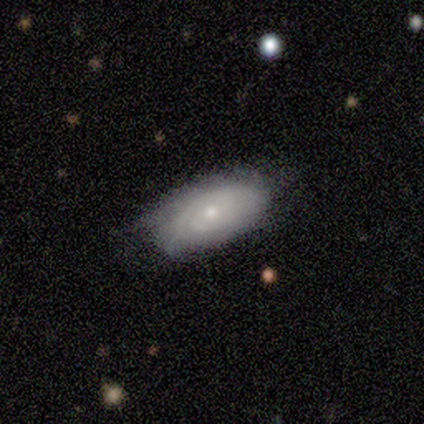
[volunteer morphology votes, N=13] Overall: featured or disk (77%). Edge-on disk: no (100%). Bar: no (90%). Spiral arms: yes (90%). Spiral arm count: can't tell (89%). Spiral winding: tight (67%). Bulge size: small (60%; moderate 30%). Merging: none (67%; minor disturbance 33%).